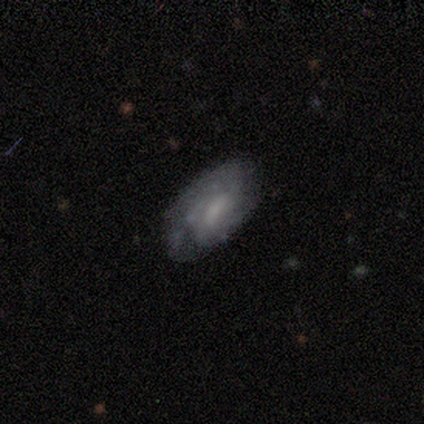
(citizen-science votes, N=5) Overall: featured or disk (80%). Edge-on disk: no (100%). Bar: no (50%; strong 25%). Spiral arms: yes (100%). Spiral arm count: 2 (100%). Spiral winding: tight (50%; medium 25%). Bulge size: small (50%; large 25%). Merging: none (60%; major disturbance 40%).